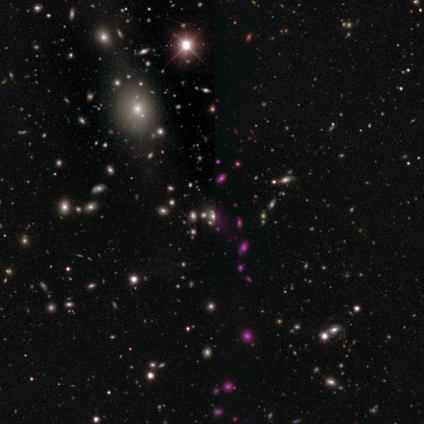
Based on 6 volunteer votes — Morphology: type=smooth (50%, tied with star or artifact); roundness=in between (67%); merging=none (33%, tied with minor disturbance and major disturbance).